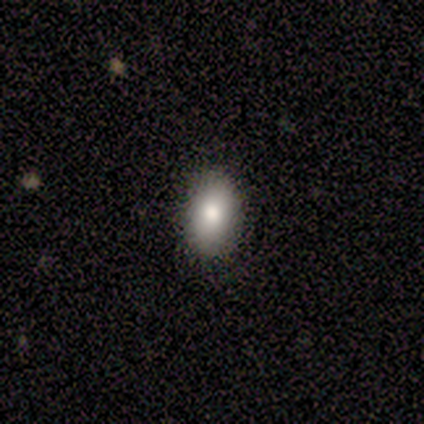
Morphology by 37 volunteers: Volunteers were most divided on "smooth or featured": smooth: 68%, featured or disk: 22%, star or artifact: 11%. More confident: merging — none (91%); how rounded — in between (88%).